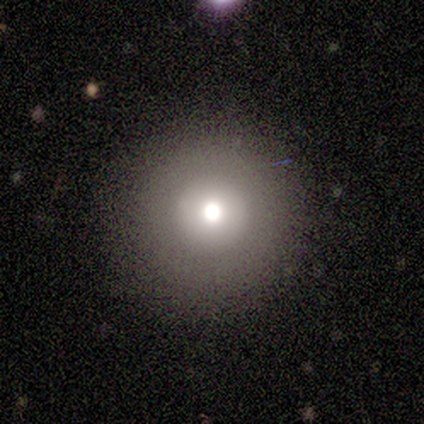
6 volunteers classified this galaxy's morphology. Overall: smooth (67%; featured or disk 33%). How rounded: round (100%). Merging: none (83%).